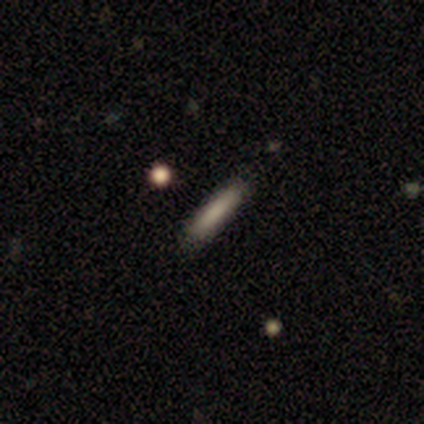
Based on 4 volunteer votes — This is possibly a featured or disk galaxy (50%). It is clearly viewed edge-on (100%). Edge-on bulge: clearly none (100%). Merging: clearly none (100%).